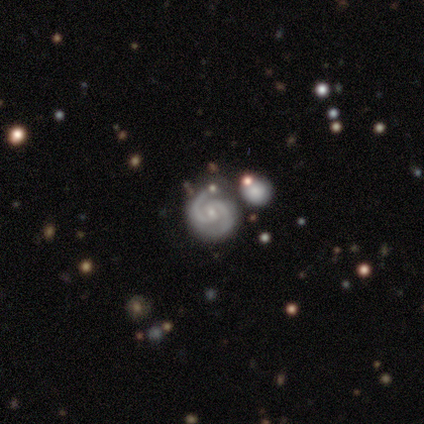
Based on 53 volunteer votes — Smooth or featured? 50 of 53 (94%) said featured or disk. Edge-on disk? 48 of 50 (96%) said no. Bar? 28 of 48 (58%) said no. Spiral arms? 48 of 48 (100%) said yes. Spiral winding? 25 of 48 (52%) said tight. Spiral arm count? 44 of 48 (92%) said 2. Bulge size? 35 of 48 (73%) said small. Merging? 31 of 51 (61%) said none.